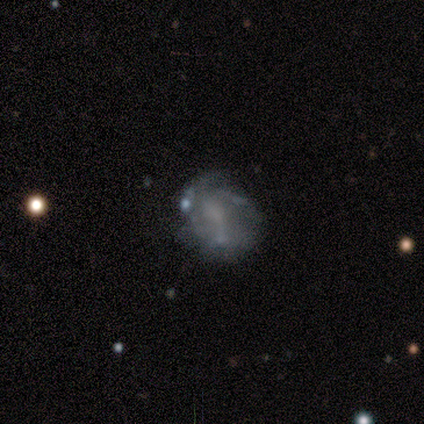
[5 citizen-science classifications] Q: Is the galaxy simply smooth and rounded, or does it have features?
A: featured or disk — 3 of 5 (60%).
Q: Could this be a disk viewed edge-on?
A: no — 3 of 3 (100%).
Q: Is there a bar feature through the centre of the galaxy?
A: no — 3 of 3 (100%).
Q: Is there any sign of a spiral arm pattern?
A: no — 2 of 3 (67%).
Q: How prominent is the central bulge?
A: none — 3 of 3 (100%).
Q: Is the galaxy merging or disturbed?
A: none — 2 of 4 (50%).